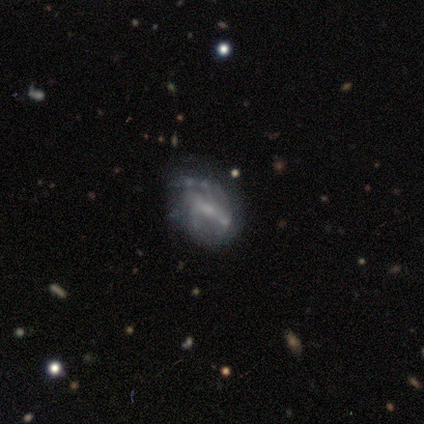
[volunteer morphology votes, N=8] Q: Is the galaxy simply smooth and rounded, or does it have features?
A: featured or disk — 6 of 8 (75%).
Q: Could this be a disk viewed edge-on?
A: no — 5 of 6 (83%).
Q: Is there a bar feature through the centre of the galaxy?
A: weak — 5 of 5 (100%).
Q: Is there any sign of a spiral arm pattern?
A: yes — 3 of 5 (60%).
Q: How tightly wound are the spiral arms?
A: tight — 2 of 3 (67%).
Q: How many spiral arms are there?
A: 1 — 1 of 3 (33%, tied with 2 and can't tell).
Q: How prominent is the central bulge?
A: small — 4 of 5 (80%).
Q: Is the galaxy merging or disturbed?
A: none — 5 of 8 (62%).